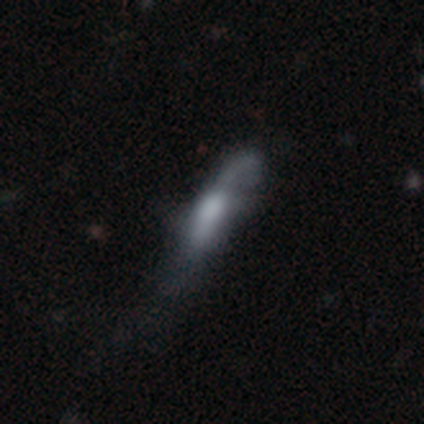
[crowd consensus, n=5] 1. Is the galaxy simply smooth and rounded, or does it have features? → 60% featured or disk, 40% smooth, 0% star or artifact.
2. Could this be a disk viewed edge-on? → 67% yes, 33% no.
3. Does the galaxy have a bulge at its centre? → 50% boxy (tied), 50% none (tied), 0% rounded.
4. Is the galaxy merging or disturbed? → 60% major disturbance, 40% none, 0% minor disturbance, 0% merger.